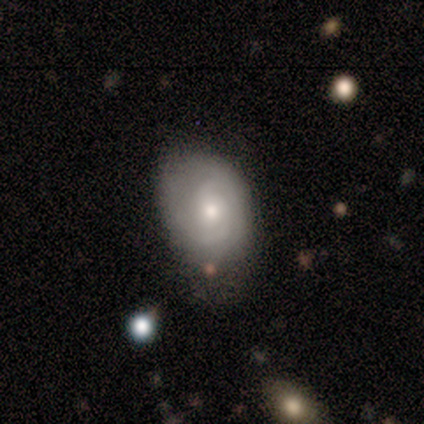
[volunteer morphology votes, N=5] smooth_or_featured: smooth (p=0.60) [alt: featured or disk p=0.40]
how_rounded: round (p=0.67) [alt: in between p=0.33]
merging: none (p=1.00)